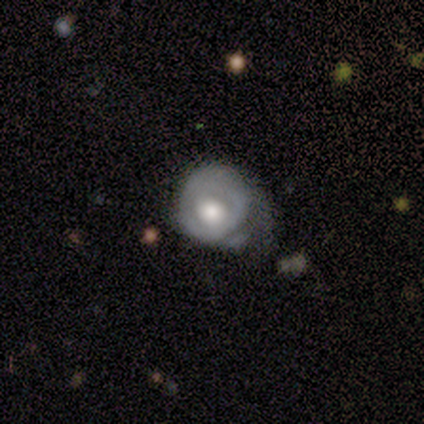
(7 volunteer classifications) Volunteers were most divided on "smooth or featured" (2-way tie): smooth: 43%, featured or disk: 43%, star or artifact: 14%. More confident: how rounded — in between (67%); merging — minor disturbance (50%).